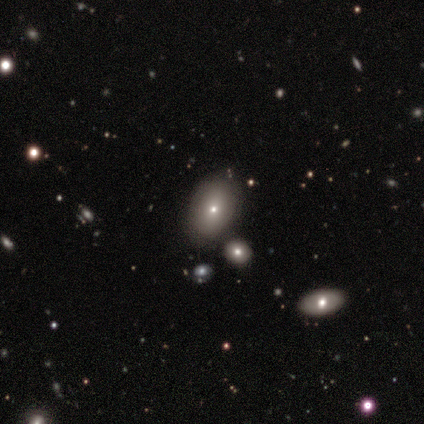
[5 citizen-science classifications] Smooth or featured: smooth — 80% (featured or disk — 20%)
How rounded: in between — 75% (round — 25%)
Merging: minor disturbance — 60% (none — 40%)